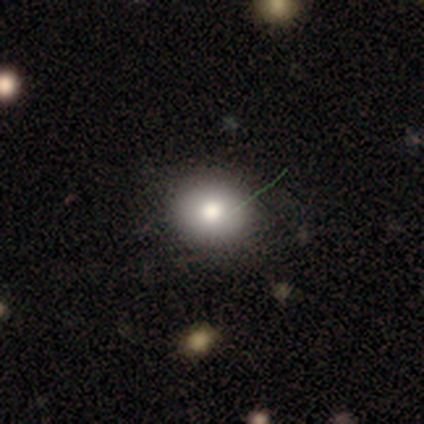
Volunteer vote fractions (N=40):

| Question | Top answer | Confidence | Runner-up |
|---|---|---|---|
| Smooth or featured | smooth | 62% | star or artifact (28%) |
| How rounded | round | 80% | in between (20%) |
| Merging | none | 76% | minor disturbance (21%) |